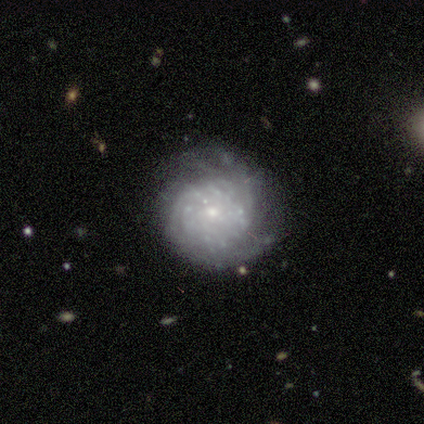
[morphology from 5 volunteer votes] Smooth or featured? 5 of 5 (100%) said featured or disk. Edge-on disk? 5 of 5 (100%) said no. Bar? 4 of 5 (80%) said no. Spiral arms? 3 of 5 (60%) said yes. Spiral winding? 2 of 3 (67%) said tight. Spiral arm count? 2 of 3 (67%) said can't tell. Bulge size? 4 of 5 (80%) said small. Merging? 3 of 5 (60%) said none.